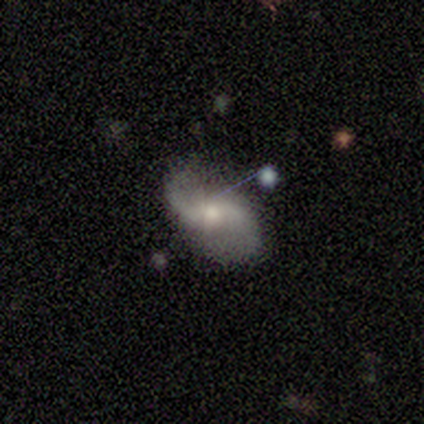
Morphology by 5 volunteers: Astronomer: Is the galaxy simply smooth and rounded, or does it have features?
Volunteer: featured or disk — 60%.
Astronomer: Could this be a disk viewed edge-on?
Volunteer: no — 100%.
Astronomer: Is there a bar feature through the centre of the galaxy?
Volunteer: no — 67%.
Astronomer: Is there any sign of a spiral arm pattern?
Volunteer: yes — 100%.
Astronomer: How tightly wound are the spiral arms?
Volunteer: loose — 67%.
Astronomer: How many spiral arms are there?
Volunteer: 2 — 100%.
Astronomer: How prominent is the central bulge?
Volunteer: moderate — 67%.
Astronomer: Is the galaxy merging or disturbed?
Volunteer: none — 50%, tied with minor disturbance at 50%.